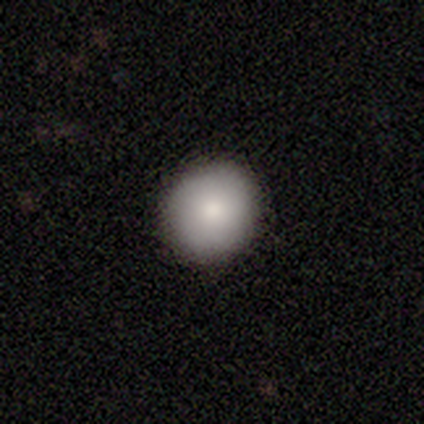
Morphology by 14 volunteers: Smooth or featured: smooth — 64% (featured or disk — 29%)
How rounded: round — 89% (in between — 11%)
Merging: none — 100%